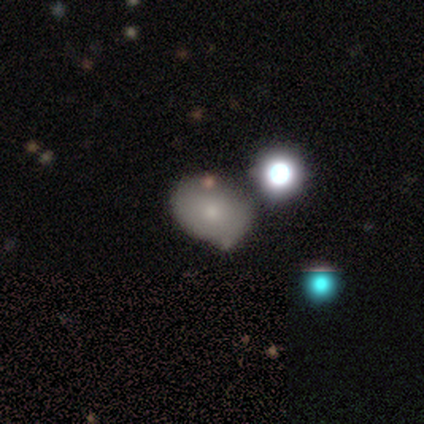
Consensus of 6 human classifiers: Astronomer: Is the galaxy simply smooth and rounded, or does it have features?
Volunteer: smooth — 83%.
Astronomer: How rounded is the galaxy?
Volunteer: in between — 80%.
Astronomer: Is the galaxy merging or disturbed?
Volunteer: none — 83%.